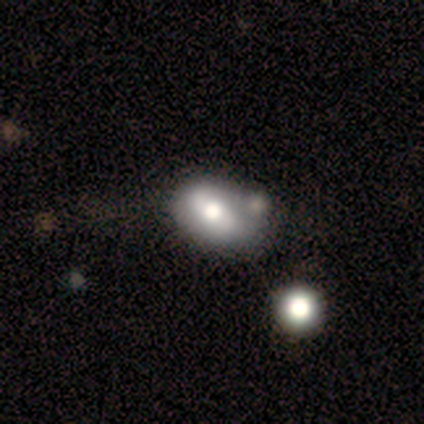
A smooth galaxy with no disk features (50%, tied with star or artifact) that is round (50%, tied with in between). Merging: none (50%, tied with merger).